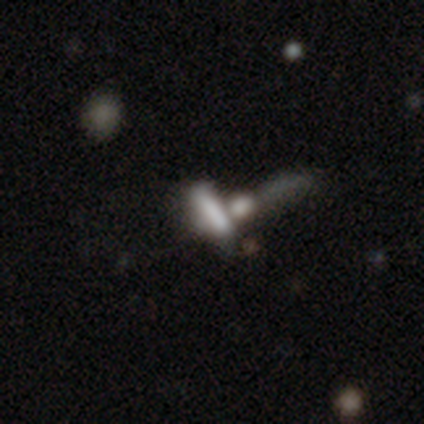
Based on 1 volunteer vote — Smooth or featured: smooth — 100%
How rounded: cigar-shaped — 100%
Merging: merger — 100%